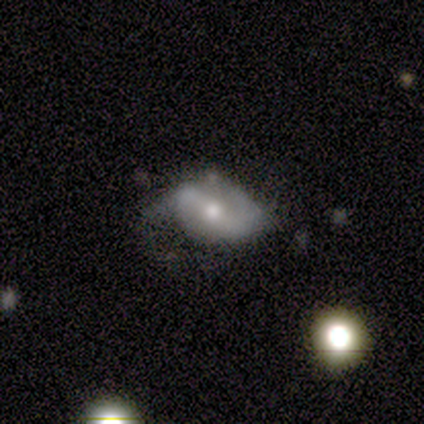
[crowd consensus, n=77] A featured or disk galaxy (74%) with a weak bar (53%), 2 (82%) medium (39%, tied with loose) spiral arms (80%) and a moderate central bulge (65%). Merging: major disturbance (42%).